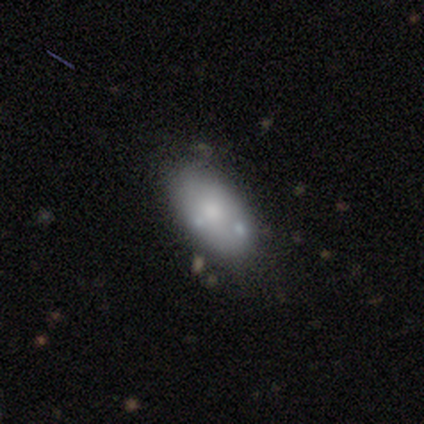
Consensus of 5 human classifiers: Smooth or featured?
  - featured or disk: 60% *
  - smooth: 40%
  - star or artifact: 0%
Edge-on disk?
  - no: 100% *
  - yes: 0%
Bar?
  - no: 100% *
  - strong: 0%
  - weak: 0%
Spiral arms?
  - no: 100% *
  - yes: 0%
Bulge size?
  - large: 33% * (tied)
  - small: 33% * (tied)
  - none: 33% * (tied)
  - dominant: 0%
  - moderate: 0%
Merging?
  - none: 100% *
  - minor disturbance: 0%
  - major disturbance: 0%
  - merger: 0%